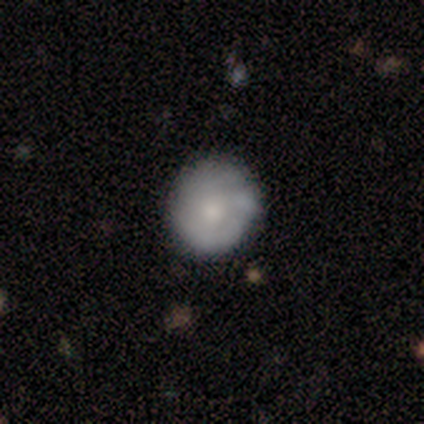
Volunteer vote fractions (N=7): A featured or disk galaxy (86%) with no bar (67%), no spiral arms (67%) and a moderate central bulge (67%).

Vote fractions:
- Smooth or featured? featured or disk: 86% / smooth: 14% / star or artifact: 0%
- Edge-on disk? no: 100% / yes: 0%
- Bar? no: 67% / strong: 17% / weak: 17%
- Spiral arms? no: 67% / yes: 33%
- Bulge size? moderate: 67% / small: 33% / dominant: 0% / large: 0% / none: 0%
- Merging? none: 71% / minor disturbance: 29% / major disturbance: 0% / merger: 0%